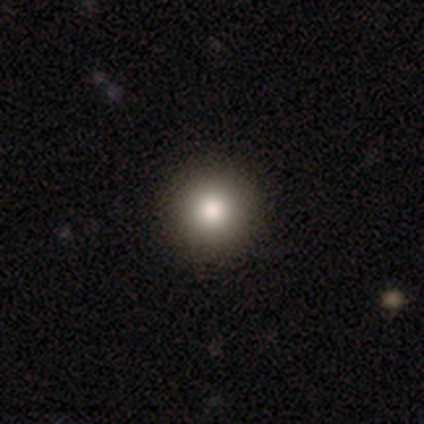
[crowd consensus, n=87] This is likely a smooth galaxy (79%). How rounded: clearly round (100%). Merging: clearly none (89%).